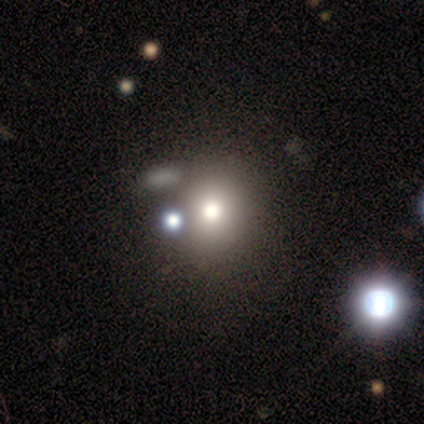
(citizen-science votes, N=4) smooth-or-featured: star or artifact: 50% | smooth: 25% | featured or disk: 25%